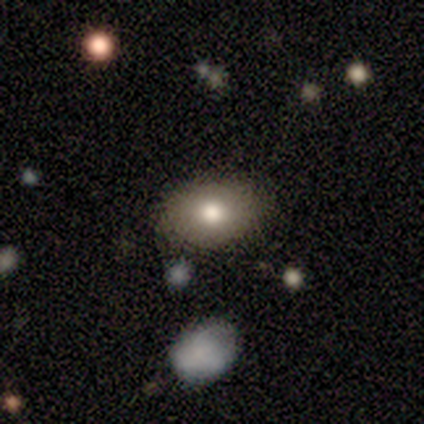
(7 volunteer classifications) smooth_or_featured: smooth (p=0.86) [alt: featured or disk p=0.14]
how_rounded: in between (p=0.67) [alt: round p=0.33]
merging: none (p=1.00)